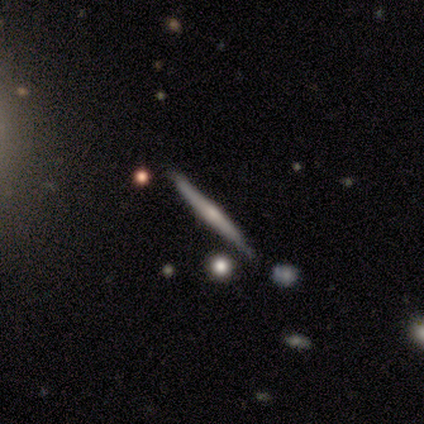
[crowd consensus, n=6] Morphology: type=smooth (50%, tied with featured or disk); roundness=cigar-shaped (100%); merging=none (67%).